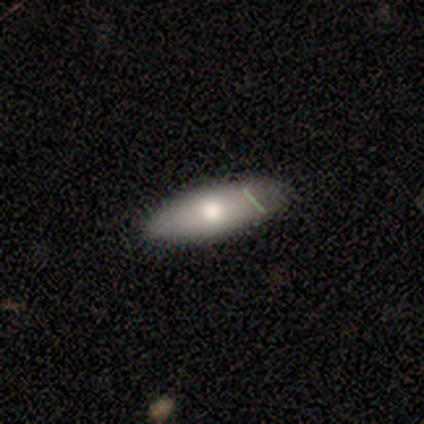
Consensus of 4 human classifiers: smooth 50% (tied), featured or disk 50% (tied), star or artifact 0%. Down the decision tree: how rounded — cigar-shaped (100%); merging — none (75%).